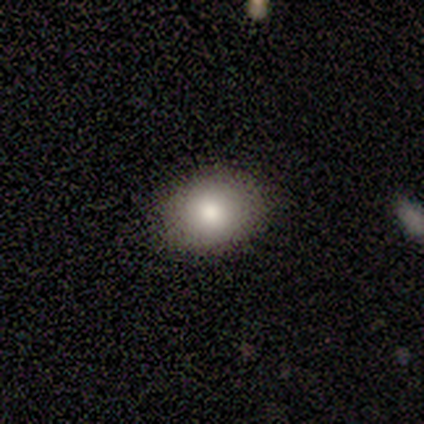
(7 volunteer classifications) smooth-or-featured: smooth: 100% | featured or disk: 0% | star or artifact: 0%
  how-rounded: in between: 71% | round: 29% | cigar-shaped: 0%
  merging: none: 71% | minor disturbance: 29% | major disturbance: 0% | merger: 0%